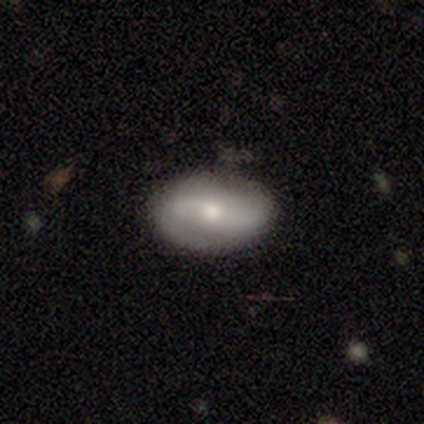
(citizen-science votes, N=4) featured or disk 100%, smooth 0%, star or artifact 0%. Down the decision tree: edge-on disk — no (100%); bar — weak (50%, tied with no); spiral arms — yes (75%); spiral arm count — 2 (67%); spiral winding — tight (33%, tied with medium and loose); bulge size — moderate (50%); merging — none (100%).